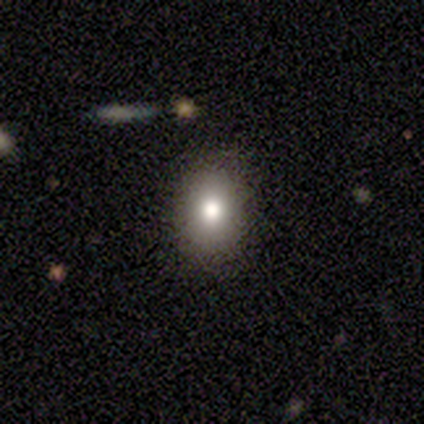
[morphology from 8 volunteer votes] smooth 88%, star or artifact 12%, featured or disk 0%. Down the decision tree: how rounded — in between (71%); merging — none (100%).